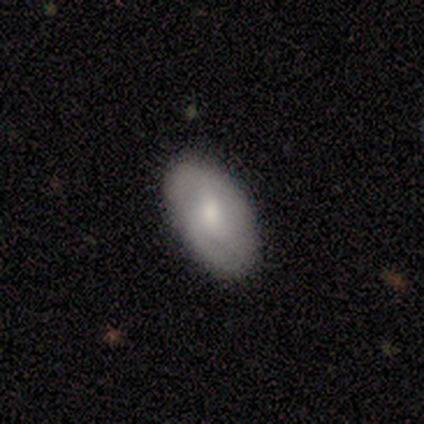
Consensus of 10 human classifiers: Q: Smooth or featured?
A: smooth (70%); runner-up: featured or disk (30%)
Q: How rounded?
A: in between (86%); runner-up: round (14%)
Q: Merging?
A: none (100%)